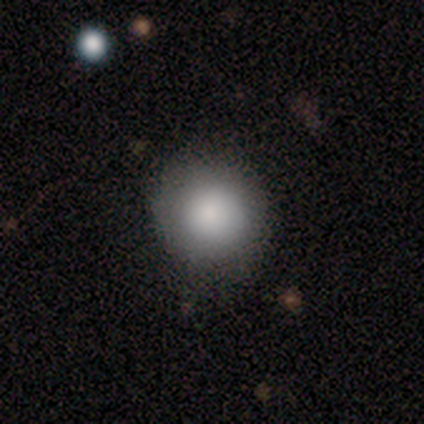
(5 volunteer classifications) smooth_or_featured: smooth (p=1.00)
how_rounded: round (p=1.00)
merging: none (p=0.80) [alt: minor disturbance p=0.20]